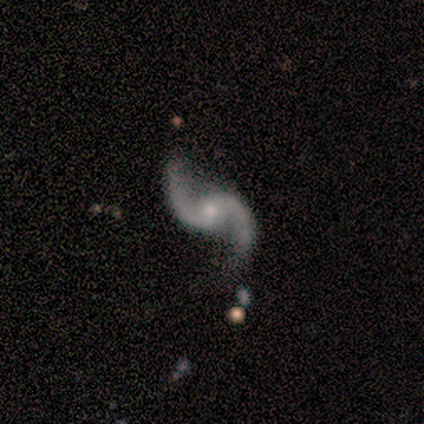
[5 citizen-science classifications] Volunteers were most divided on "bar" (2-way tie): weak: 50%, no: 50%, strong: 0%. More confident: smooth or featured — featured or disk (100%); spiral arms — yes (100%); spiral winding — loose (100%); spiral arm count — 2 (100%); bulge size — small (100%); edge-on disk — no (80%); merging — none (80%).